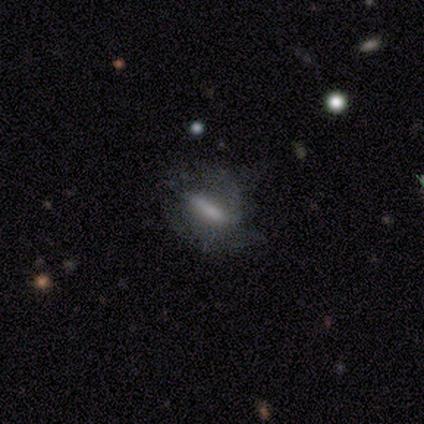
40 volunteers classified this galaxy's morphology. Overall: featured or disk (48%; smooth 42%). Edge-on disk: no (79%). Bar: strong (60%; weak 27%). Spiral arms: yes (87%). Spiral arm count: 2 (54%; 1 23%). Spiral winding: medium (46%; tight 38%). Bulge size: none (47%; small 27%). Merging: none (44%; minor disturbance 28%).